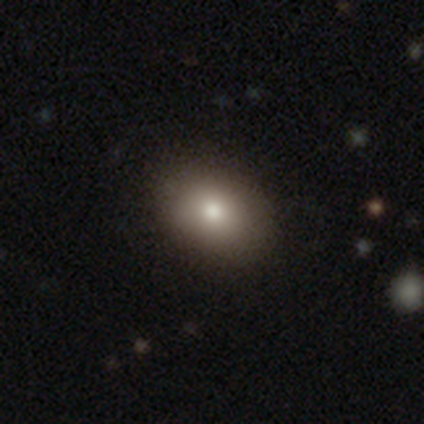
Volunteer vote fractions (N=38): Smooth or featured?
  - smooth: 66% *
  - featured or disk: 26%
  - star or artifact: 8%
How rounded?
  - in between: 80% *
  - round: 20%
  - cigar-shaped: 0%
Merging?
  - none: 91% *
  - minor disturbance: 9%
  - major disturbance: 0%
  - merger: 0%